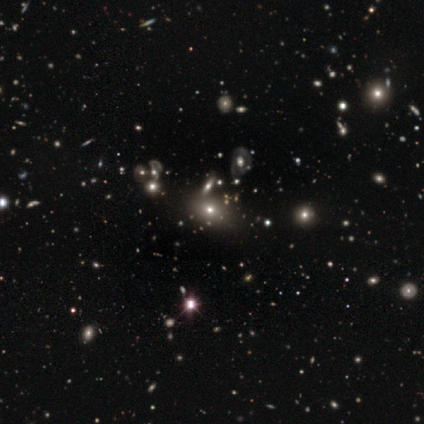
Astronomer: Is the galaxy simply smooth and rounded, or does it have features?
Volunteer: smooth — 48% (runner-up: featured or disk, 30%).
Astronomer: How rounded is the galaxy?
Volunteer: in between — 68%.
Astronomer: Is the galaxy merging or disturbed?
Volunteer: none — 65%.